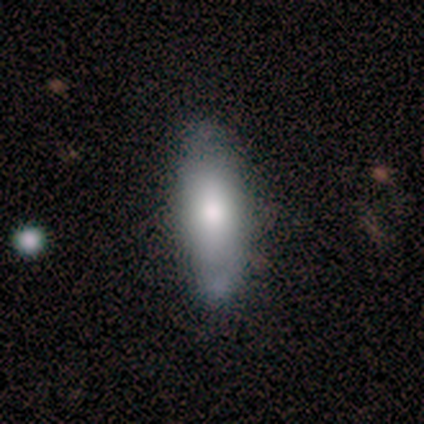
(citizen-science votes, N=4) This appears to be a smooth galaxy with no disk features (100%) that is in between round and cigar-shaped (50%, tied with cigar-shaped). Merging: none (75%).